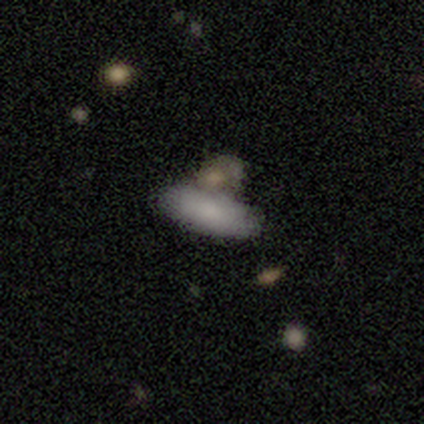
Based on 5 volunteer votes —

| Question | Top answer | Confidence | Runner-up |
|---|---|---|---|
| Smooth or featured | smooth | 100% | — |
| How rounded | in between | 100% | — |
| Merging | none | 40% | tied: merger (40%) |